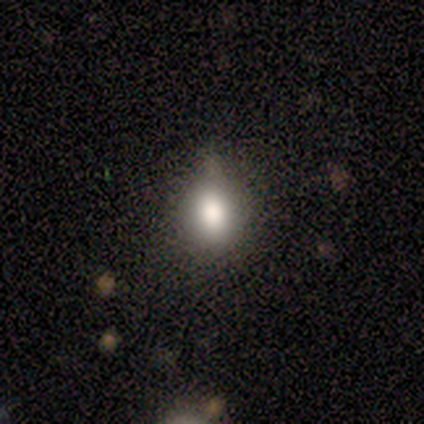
Smooth or featured? 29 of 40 (72%) said smooth. How rounded? 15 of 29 (52%) said in between. Merging? 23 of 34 (68%) said none.